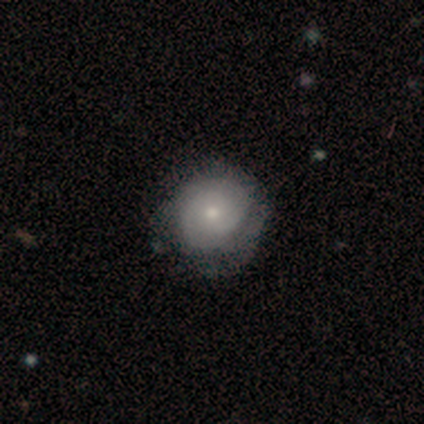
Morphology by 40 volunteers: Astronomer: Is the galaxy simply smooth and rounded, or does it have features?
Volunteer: featured or disk — 50% (runner-up: smooth, 45%).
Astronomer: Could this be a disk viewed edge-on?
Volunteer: no — 100%.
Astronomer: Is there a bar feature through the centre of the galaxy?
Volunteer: no — 80%.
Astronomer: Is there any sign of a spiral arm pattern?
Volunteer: yes — 75%.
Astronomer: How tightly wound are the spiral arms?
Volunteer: tight — 67%.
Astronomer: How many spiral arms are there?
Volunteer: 2 — 53% (runner-up: can't tell, 40%).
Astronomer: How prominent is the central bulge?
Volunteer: small — 55%.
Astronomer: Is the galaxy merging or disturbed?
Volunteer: none — 47%.